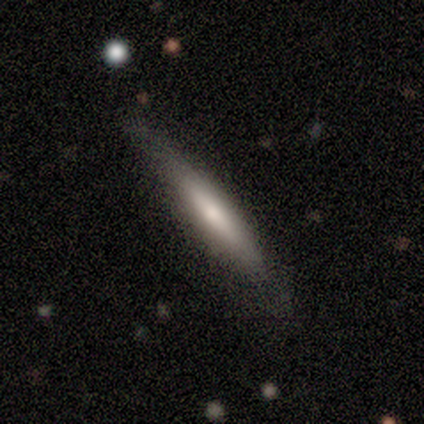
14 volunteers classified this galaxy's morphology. A smooth galaxy with no disk features (64%) that is cigar-shaped (89%).

Vote fractions:
- Smooth or featured? smooth: 64% / featured or disk: 36% / star or artifact: 0%
- How rounded? cigar-shaped: 89% / in between: 11% / round: 0%
- Merging? none: 86% / minor disturbance: 14% / major disturbance: 0% / merger: 0%